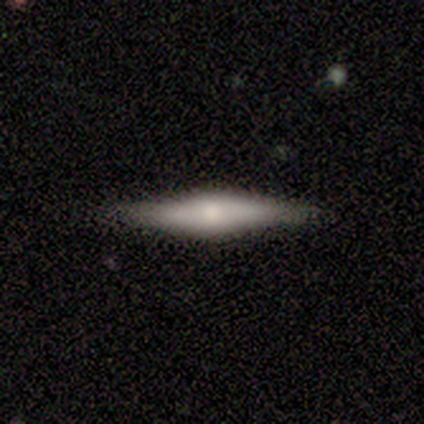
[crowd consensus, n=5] Morphology: type=featured or disk (60%); edge-on=yes (100%); edge-on bulge=rounded (100%); merging=none (80%).